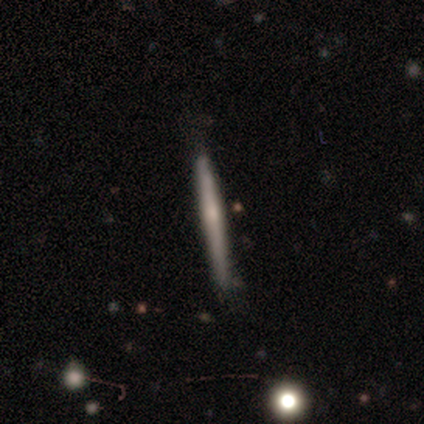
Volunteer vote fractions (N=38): Overall: featured or disk (61%; smooth 39%). Edge-on disk: yes (100%). Edge-on bulge: none (52%; rounded 39%). Merging: none (71%).